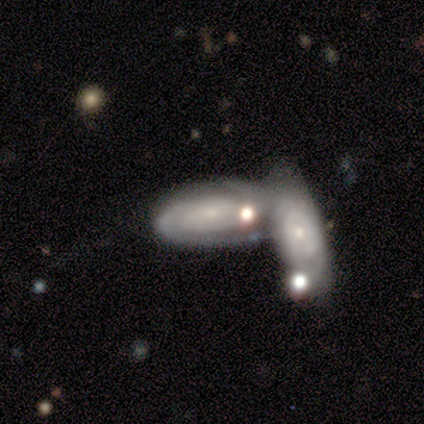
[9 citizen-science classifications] Smooth or featured: featured or disk — 67% (smooth — 33%)
Edge-on disk: no — 83% (yes — 17%)
Bar: weak — 60% (no — 40%)
Spiral arms: yes — 100%
Spiral winding: tight — 100%
Spiral arm count: 2 — 80% (can't tell — 20%)
Bulge size: small — 100%
Merging: merger — 100%